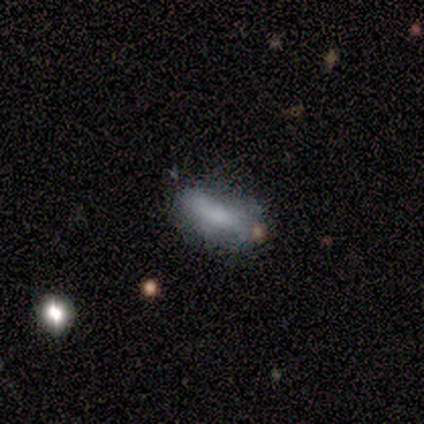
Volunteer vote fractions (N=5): This is likely a smooth galaxy (60%). How rounded: likely in between (67%). Merging: possibly minor disturbance (50%).